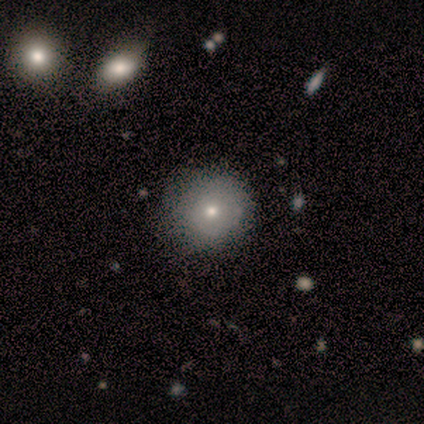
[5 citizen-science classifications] A smooth galaxy with no disk features (40%, tied with featured or disk) that is round (100%). Merging: none (100%).